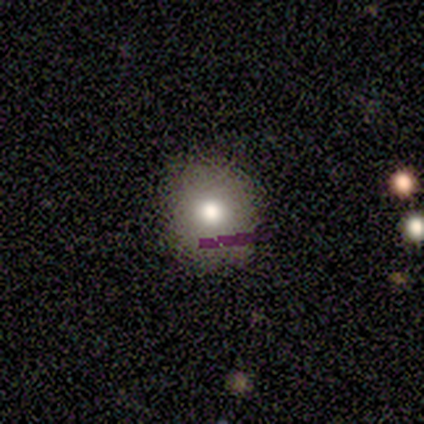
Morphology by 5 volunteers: Smooth or featured? 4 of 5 (80%) said smooth. How rounded? 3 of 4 (75%) said round. Merging? 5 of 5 (100%) said none.